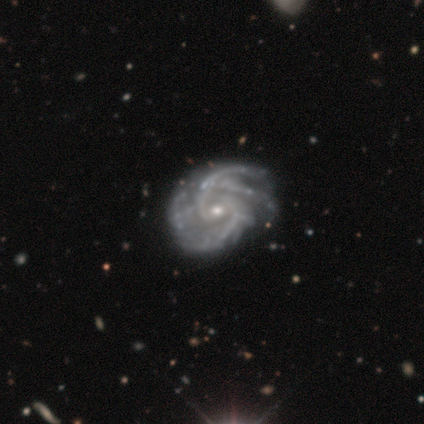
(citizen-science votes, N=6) A featured or disk galaxy (100%) with no bar (50%), 2 (33%, tied with 4) medium (50%) spiral arms (100%) and a small central bulge (83%). Merging: none (33%, tied with minor disturbance and major disturbance).